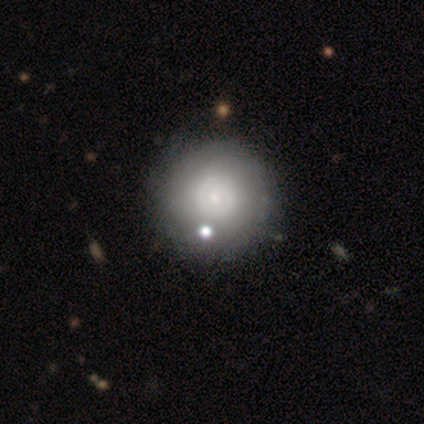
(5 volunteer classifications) Smooth or featured?
  - featured or disk: 100% *
  - smooth: 0%
  - star or artifact: 0%
Edge-on disk?
  - no: 100% *
  - yes: 0%
Bar?
  - no: 100% *
  - strong: 0%
  - weak: 0%
Spiral arms?
  - no: 80% *
  - yes: 20%
Bulge size?
  - small: 100% *
  - dominant: 0%
  - large: 0%
  - moderate: 0%
  - none: 0%
Merging?
  - none: 80% *
  - minor disturbance: 20%
  - major disturbance: 0%
  - merger: 0%